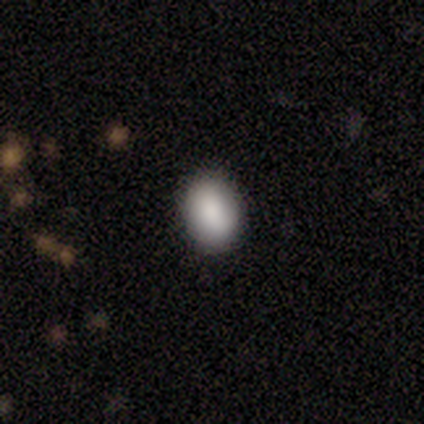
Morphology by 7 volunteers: Volunteers were most divided on "how rounded" (2-way tie): round: 50%, in between: 50%, cigar-shaped: 0%. More confident: merging — none (100%); smooth or featured — smooth (86%).